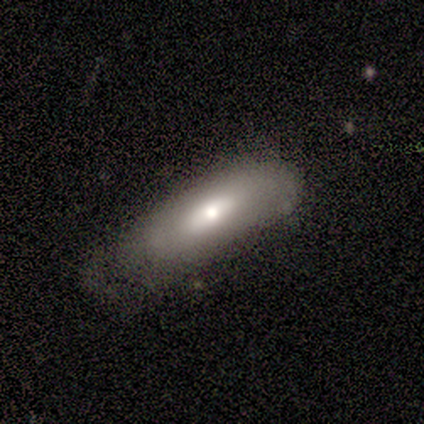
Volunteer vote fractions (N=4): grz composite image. It shows a smooth galaxy with no disk features (100%) that is cigar-shaped (75%). Merging: none (50%).